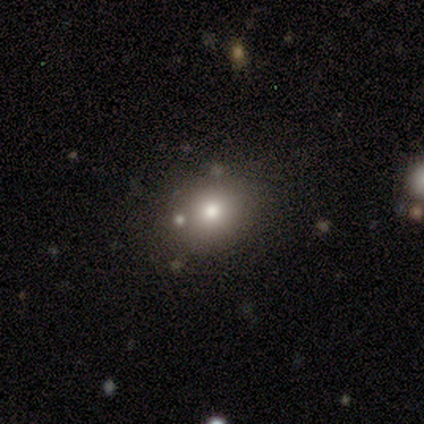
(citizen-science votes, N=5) Q: Smooth or featured?
A: smooth (100%)
Q: How rounded?
A: round (80%); runner-up: in between (20%)
Q: Merging?
A: none (80%); runner-up: merger (20%)